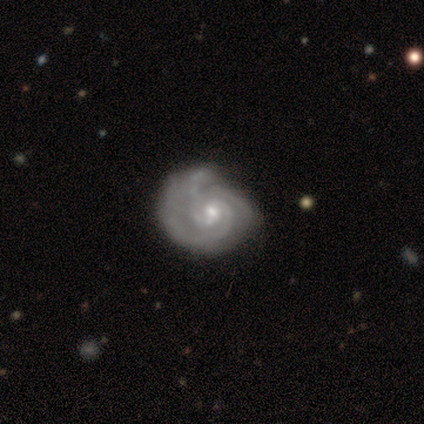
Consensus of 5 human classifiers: Smooth or featured: featured or disk — 80% (star or artifact — 20%)
Edge-on disk: no — 100%
Bar: weak — 50% (strong — 25%)
Spiral arms: yes — 100%
Spiral winding: medium — 50% (tight — 25%)
Spiral arm count: 3 — 75% (can't tell — 25%)
Bulge size: small — 100%
Merging: minor disturbance — 50% (none — 25%)